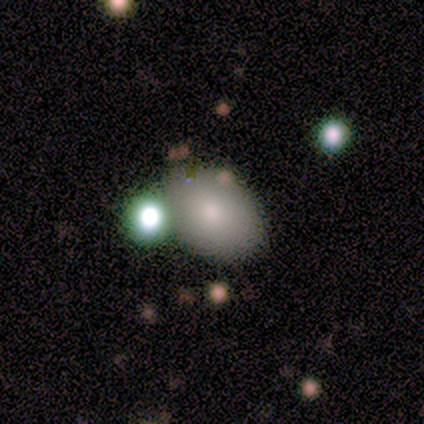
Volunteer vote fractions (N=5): Morphology: type=smooth (80%); roundness=in between (100%); merging=none (80%).